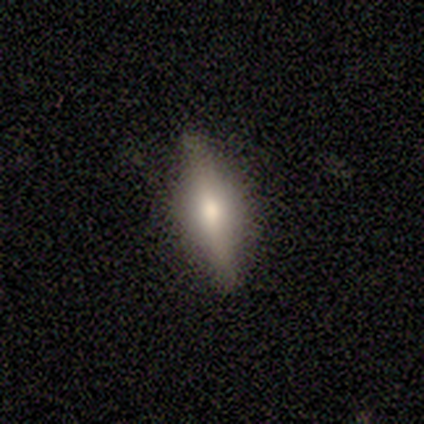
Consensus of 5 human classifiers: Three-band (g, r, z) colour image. It shows a featured or disk galaxy (80%) viewed edge-on (100%) with a rounded central bulge (100%). Merging: none (100%).